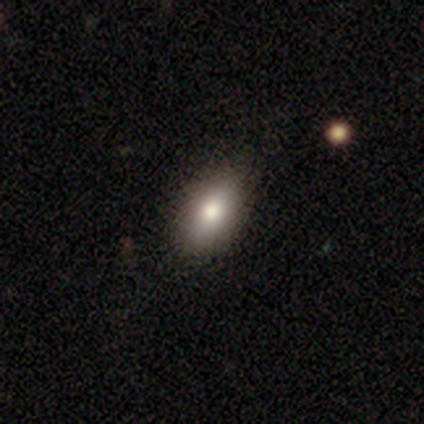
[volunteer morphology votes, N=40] smooth-or-featured: smooth: 75% | featured or disk: 20% | star or artifact: 5%
  how-rounded: in between: 90% | cigar-shaped: 7% | round: 3%
  merging: none: 66% | minor disturbance: 3% | major disturbance: 0% | merger: 0%